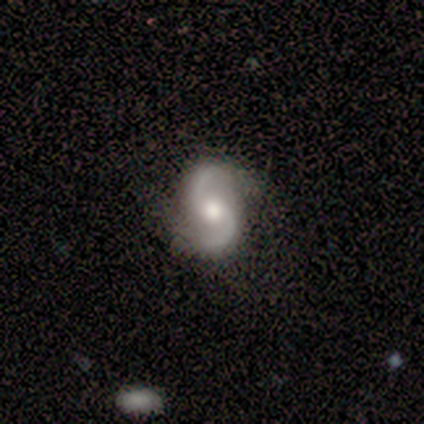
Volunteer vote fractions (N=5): smooth_or_featured: featured or disk (p=0.80) [alt: smooth p=0.20]
disk_edge_on: no (p=1.00)
bar: no (p=1.00)
has_spiral_arms: yes (p=1.00)
spiral_winding: medium (p=0.75) [alt: tight p=0.25]
spiral_arm_count: 2 (p=1.00)
bulge_size: large (p=0.50) [tied with: moderate p=0.50]
merging: none (p=0.80) [alt: merger p=0.20]